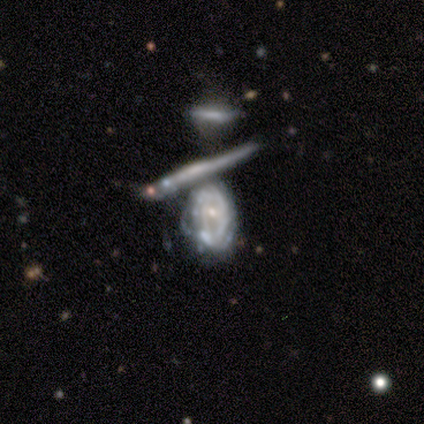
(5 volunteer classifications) A featured or disk galaxy (60%) with a weak bar (50%, tied with no), no spiral arms (100%) and a moderate central bulge (50%, tied with none).

Vote fractions:
- Smooth or featured? featured or disk: 60% / smooth: 40% / star or artifact: 0%
- Edge-on disk? no: 67% / yes: 33%
- Bar? weak: 50% (tied) / no: 50% (tied) / strong: 0%
- Spiral arms? no: 100% / yes: 0%
- Bulge size? moderate: 50% (tied) / none: 50% (tied) / dominant: 0% / large: 0% / small: 0%
- Merging? merger: 80% / major disturbance: 20% / none: 0% / minor disturbance: 0%